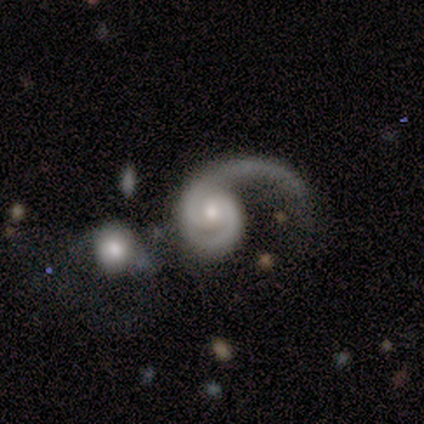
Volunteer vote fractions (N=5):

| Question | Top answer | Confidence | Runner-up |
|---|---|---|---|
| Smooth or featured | featured or disk | 100% | — |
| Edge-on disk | no | 100% | — |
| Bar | no | 80% | weak (20%) |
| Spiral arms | yes | 100% | — |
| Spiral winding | tight | 40% | tied: loose (40%) |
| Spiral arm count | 1 | 100% | — |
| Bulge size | moderate | 40% | tied: small (40%) |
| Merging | none | 40% | tied: major disturbance (40%) |